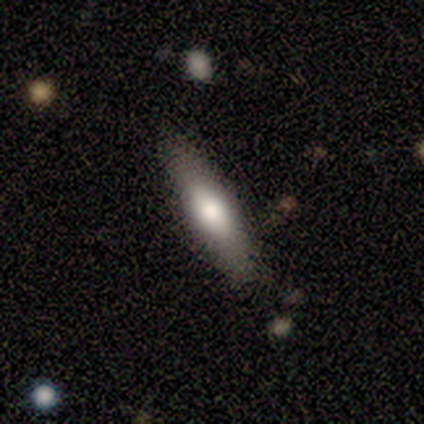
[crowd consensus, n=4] A smooth galaxy with no disk features (50%) that is in between round and cigar-shaped (50%, tied with cigar-shaped). Merging: none (100%).